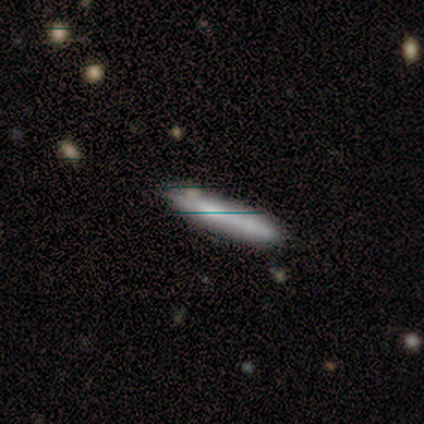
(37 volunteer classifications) Smooth or featured?
  - smooth: 65% *
  - featured or disk: 24%
  - star or artifact: 11%
How rounded?
  - cigar-shaped: 100% *
  - round: 0%
  - in between: 0%
Merging?
  - none: 82% *
  - minor disturbance: 15%
  - merger: 3%
  - major disturbance: 0%